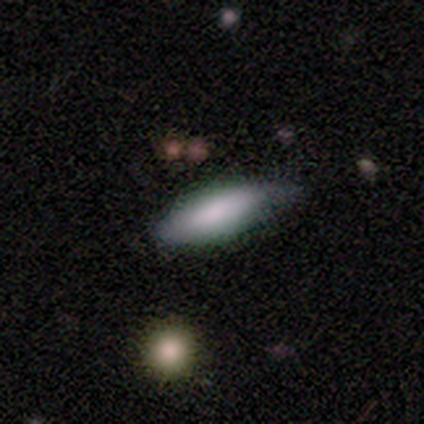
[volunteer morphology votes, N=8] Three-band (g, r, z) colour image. It shows a smooth galaxy with no disk features (100%) that is in between round and cigar-shaped (50%, tied with cigar-shaped). Merging: none (62%).